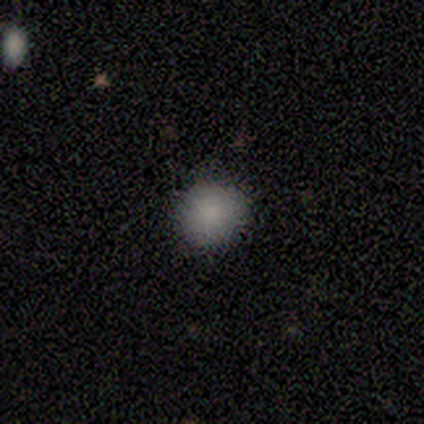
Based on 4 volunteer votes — Smooth or featured?
  - smooth: 100% *
  - featured or disk: 0%
  - star or artifact: 0%
How rounded?
  - round: 100% *
  - in between: 0%
  - cigar-shaped: 0%
Merging?
  - none: 100% *
  - minor disturbance: 0%
  - major disturbance: 0%
  - merger: 0%